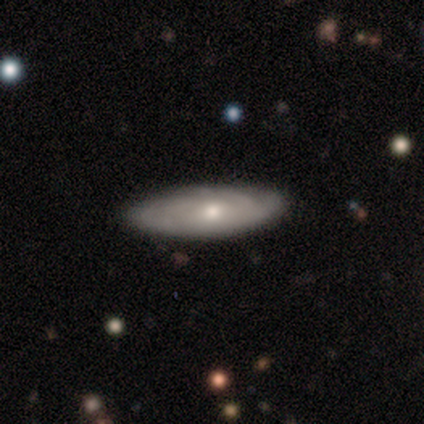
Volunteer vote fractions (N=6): A smooth galaxy with no disk features (50%, tied with featured or disk) that is in between round and cigar-shaped (100%).

Vote fractions:
- Smooth or featured? smooth: 50% (tied) / featured or disk: 50% (tied) / star or artifact: 0%
- How rounded? in between: 100% / round: 0% / cigar-shaped: 0%
- Merging? none: 100% / minor disturbance: 0% / major disturbance: 0% / merger: 0%